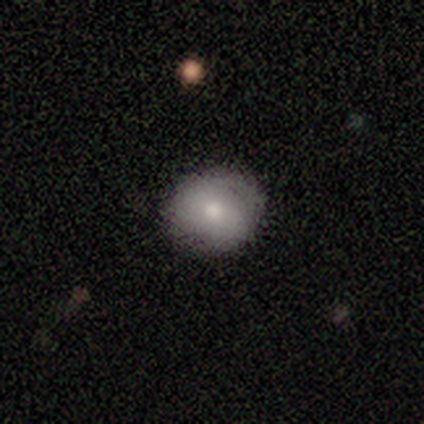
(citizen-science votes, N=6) Smooth or featured: smooth — 100%
How rounded: round — 83% (in between — 17%)
Merging: none — 67% (minor disturbance — 33%)